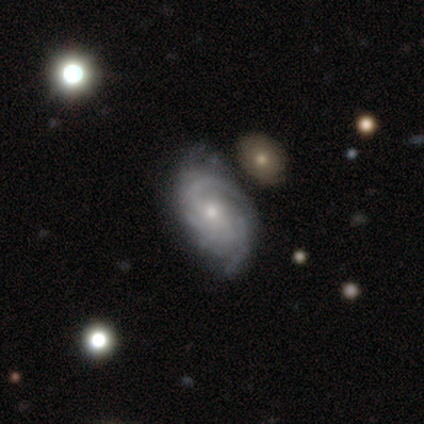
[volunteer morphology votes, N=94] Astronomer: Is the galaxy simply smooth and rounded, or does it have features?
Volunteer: featured or disk — 86%.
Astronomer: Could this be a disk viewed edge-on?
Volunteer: no — 95%.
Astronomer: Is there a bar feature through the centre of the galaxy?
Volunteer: no — 69%.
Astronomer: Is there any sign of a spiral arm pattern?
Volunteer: yes — 96%.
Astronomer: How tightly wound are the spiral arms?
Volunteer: tight — 43%, tied with medium at 43%.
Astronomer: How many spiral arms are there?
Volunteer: can't tell — 32% (runner-up: 3, 28%).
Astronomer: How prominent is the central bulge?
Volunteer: small — 61% (runner-up: moderate, 39%).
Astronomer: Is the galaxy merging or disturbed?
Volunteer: none — 73%.